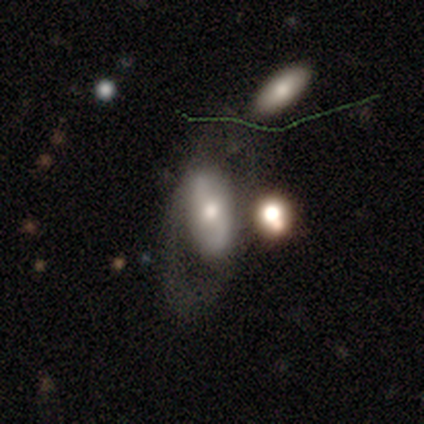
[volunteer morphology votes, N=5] Overall: featured or disk (60%; smooth 40%). Edge-on disk: no (67%; yes 33%). Bar: weak (50%, tied with no). Spiral arms: yes (100%). Spiral arm count: 2 (100%). Spiral winding: tight (50%, tied with loose). Bulge size: moderate (50%, tied with small). Merging: none (40%, tied with major disturbance).